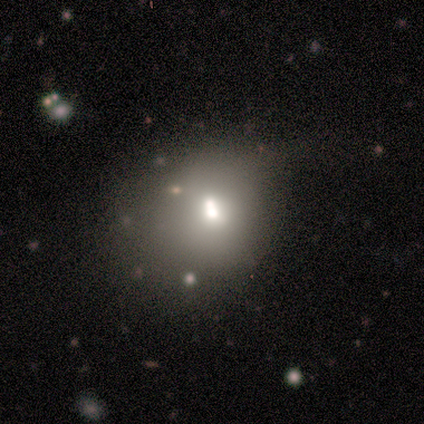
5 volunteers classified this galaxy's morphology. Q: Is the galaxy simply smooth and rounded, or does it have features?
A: smooth — 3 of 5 (60%).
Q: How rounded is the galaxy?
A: in between — 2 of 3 (67%).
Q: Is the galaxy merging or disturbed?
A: minor disturbance — 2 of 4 (50%, tied with merger).